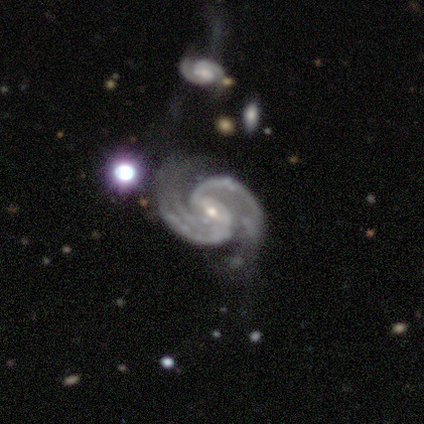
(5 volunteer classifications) Volunteers were most divided on "merging" (2-way tie): none: 40%, minor disturbance: 40%, major disturbance: 20%, merger: 0%. More confident: smooth or featured — featured or disk (100%); edge-on disk — no (100%); spiral arms — yes (100%); spiral winding — medium (80%); spiral arm count — 2 (80%); bulge size — small (80%); bar — weak (60%).